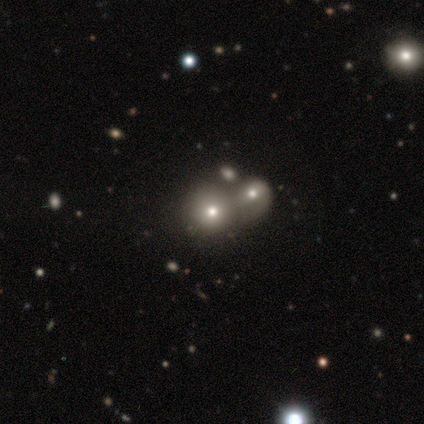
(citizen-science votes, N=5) Smooth or featured? featured or disk (40%, tied with star or artifact)
Edge-on disk? yes (50%, tied with no)
Edge-on bulge? rounded (100%)
Merging? merger (67%)